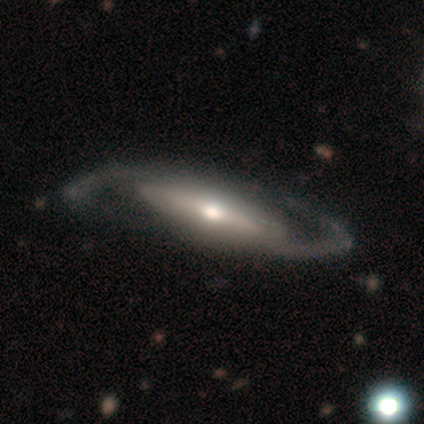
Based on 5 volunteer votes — Smooth or featured? 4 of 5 (80%) said featured or disk. Edge-on disk? 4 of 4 (100%) said no. Bar? 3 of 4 (75%) said weak. Spiral arms? 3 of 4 (75%) said yes. Spiral winding? 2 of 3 (67%) said medium. Spiral arm count? 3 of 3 (100%) said 2. Bulge size? 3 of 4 (75%) said moderate. Merging? 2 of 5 (40%, tied with major disturbance) said none.